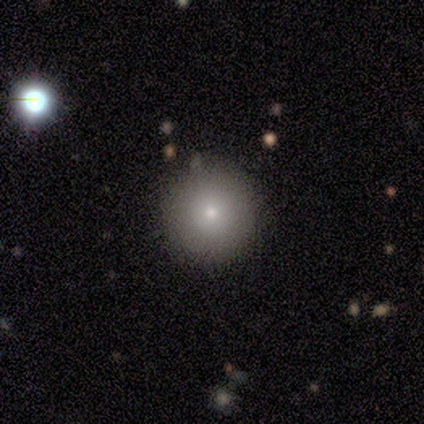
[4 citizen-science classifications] A smooth galaxy with no disk features (75%) that is round (100%). Merging: none (100%).